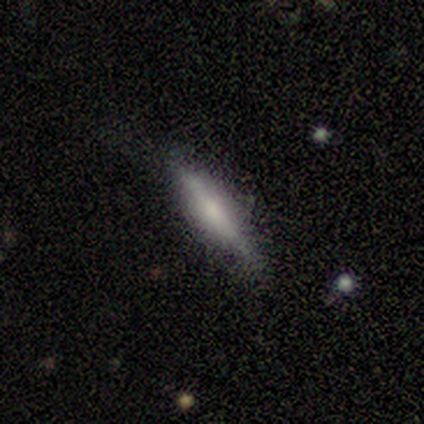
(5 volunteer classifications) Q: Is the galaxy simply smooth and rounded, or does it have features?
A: featured or disk — 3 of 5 (60%).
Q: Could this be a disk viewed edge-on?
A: yes — 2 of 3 (67%).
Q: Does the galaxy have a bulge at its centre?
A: none — 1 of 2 (50%, tied with rounded).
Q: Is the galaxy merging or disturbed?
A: none — 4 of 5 (80%).